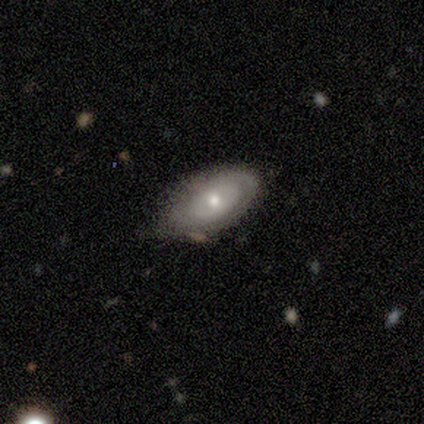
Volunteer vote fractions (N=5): smooth 80%, featured or disk 20%, star or artifact 0%. Down the decision tree: how rounded — in between (100%); merging — none (60%).